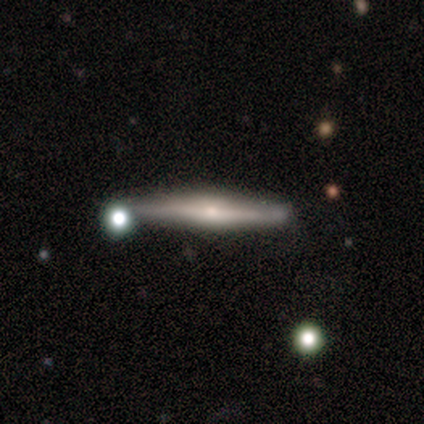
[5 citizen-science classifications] Q: Smooth or featured?
A: featured or disk (80%); runner-up: smooth (20%)
Q: Edge-on disk?
A: yes (100%)
Q: Edge-on bulge?
A: rounded (50%); runner-up: boxy (25%)
Q: Merging?
A: none (60%); runner-up: minor disturbance (20%)